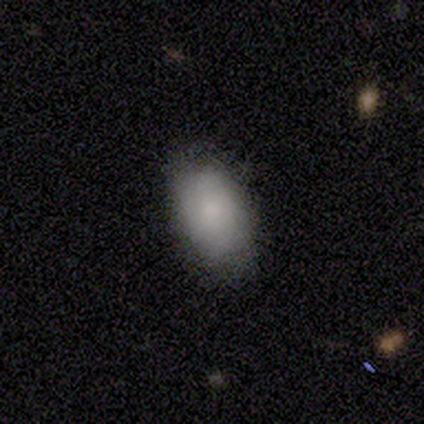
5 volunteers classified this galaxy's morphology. Smooth or featured?
  - smooth: 80% *
  - featured or disk: 20%
  - star or artifact: 0%
How rounded?
  - in between: 100% *
  - round: 0%
  - cigar-shaped: 0%
Merging?
  - none: 80% *
  - minor disturbance: 20%
  - major disturbance: 0%
  - merger: 0%